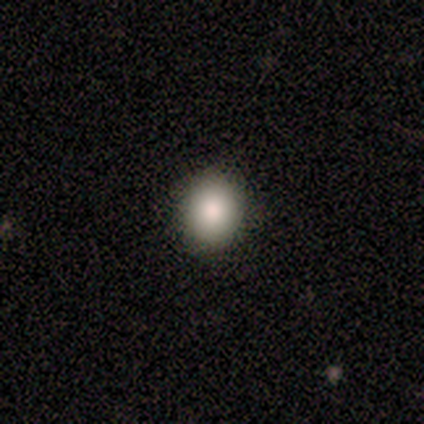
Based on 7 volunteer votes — A smooth galaxy with no disk features (71%) that is in between round and cigar-shaped (60%).

Vote fractions:
- Smooth or featured? smooth: 71% / featured or disk: 29% / star or artifact: 0%
- How rounded? in between: 60% / round: 40% / cigar-shaped: 0%
- Merging? none: 57% / major disturbance: 29% / minor disturbance: 14% / merger: 0%